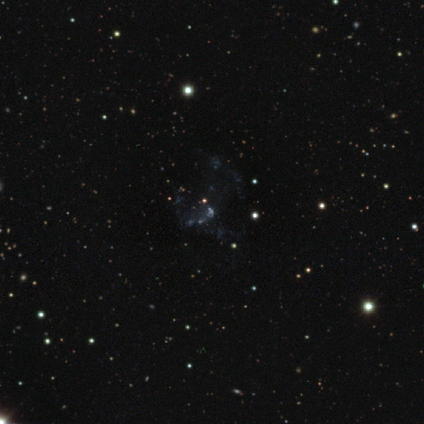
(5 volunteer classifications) This is likely a star or artifact rather than a galaxy (60%).